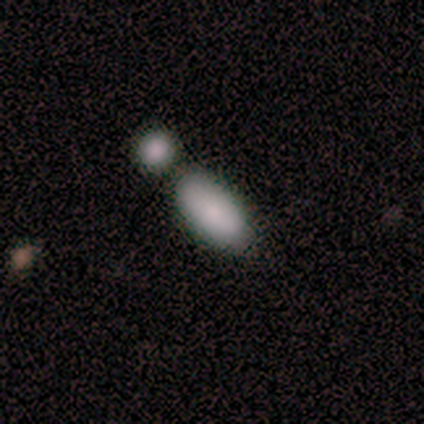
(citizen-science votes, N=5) This appears to be a smooth galaxy with no disk features (100%) that is in between round and cigar-shaped (60%). Merging: none (40%, tied with merger).